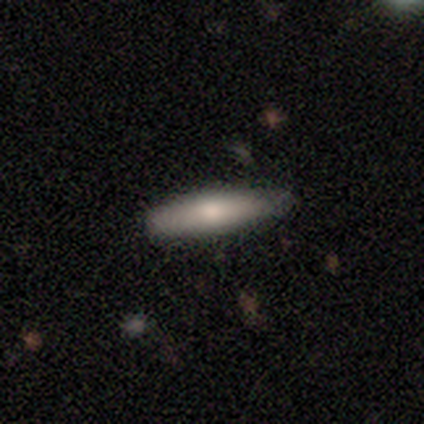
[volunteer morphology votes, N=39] smooth 56%, featured or disk 36%, star or artifact 8%. Down the decision tree: how rounded — cigar-shaped (86%); merging — none (67%).